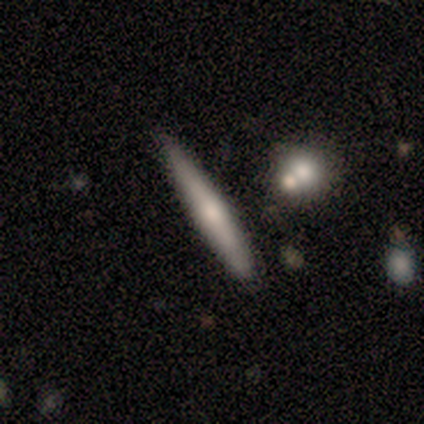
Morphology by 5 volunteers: Smooth or featured? 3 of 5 (60%) said smooth. How rounded? 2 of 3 (67%) said cigar-shaped. Merging? 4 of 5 (80%) said none.